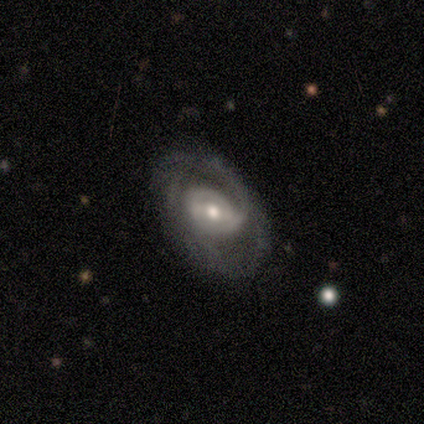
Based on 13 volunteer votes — Overall: featured or disk (92%). Edge-on disk: no (92%). Bar: strong (36%, tied with no). Spiral arms: yes (55%; no 45%). Spiral arm count: 2 (83%). Spiral winding: medium (67%; tight 33%). Bulge size: moderate (73%). Merging: none (77%).